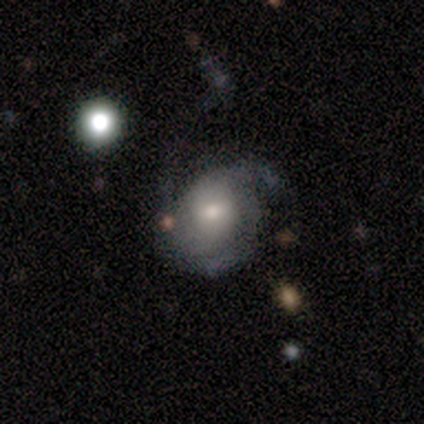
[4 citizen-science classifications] Smooth or featured?
  - smooth: 50% * (tied)
  - featured or disk: 50% * (tied)
  - star or artifact: 0%
How rounded?
  - round: 50% * (tied)
  - in between: 50% * (tied)
  - cigar-shaped: 0%
Merging?
  - none: 75% *
  - minor disturbance: 25%
  - major disturbance: 0%
  - merger: 0%